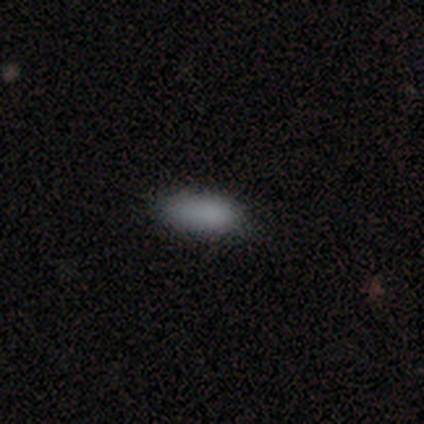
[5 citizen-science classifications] Smooth or featured? smooth (60%)
How rounded? in between (67%)
Merging? none (60%)